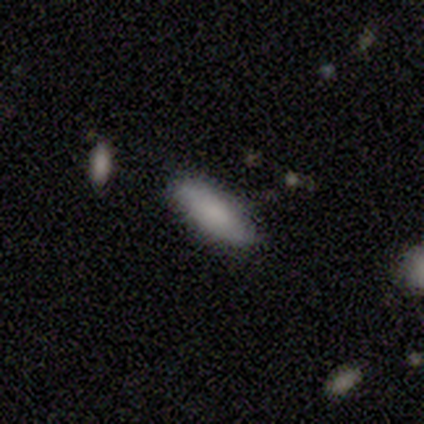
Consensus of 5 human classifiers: smooth 60%, featured or disk 40%, star or artifact 0%. Down the decision tree: how rounded — in between (67%); merging — none (100%).